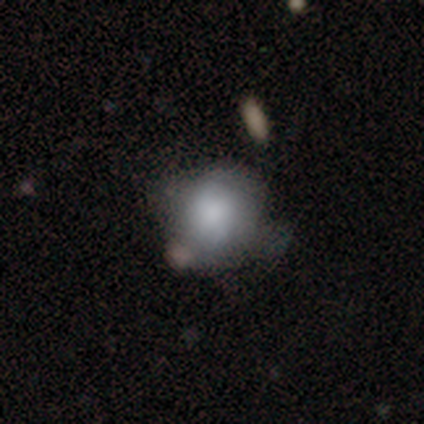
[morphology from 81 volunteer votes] Smooth or featured? 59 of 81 (73%) said smooth. How rounded? 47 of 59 (80%) said round. Merging? 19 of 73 (26%) said minor disturbance.